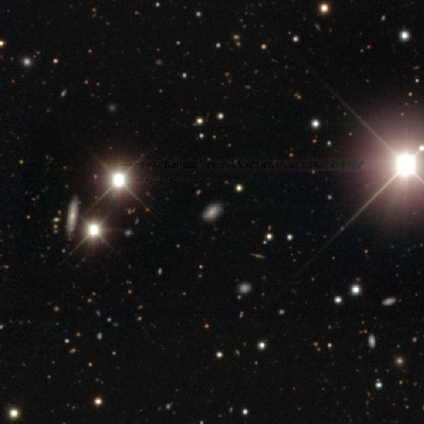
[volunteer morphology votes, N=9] This is likely a star or artifact rather than a galaxy (67%).